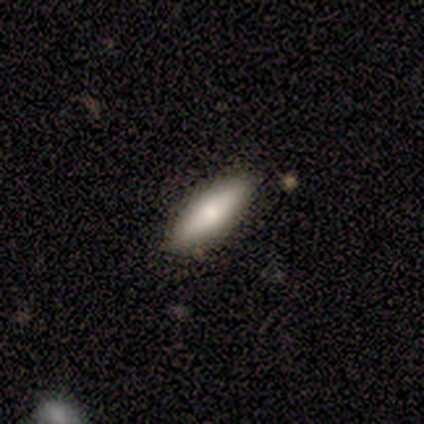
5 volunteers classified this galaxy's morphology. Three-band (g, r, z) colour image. It shows a smooth galaxy with no disk features (80%) that is cigar-shaped (75%). Merging: none (80%).